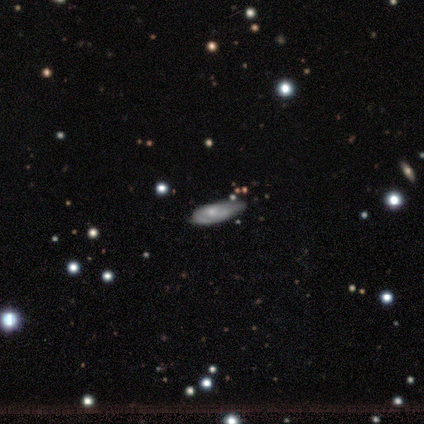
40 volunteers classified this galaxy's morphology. Smooth or featured? 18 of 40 (45%) said smooth. How rounded? 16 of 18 (89%) said in between. Merging? 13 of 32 (41%) said minor disturbance.